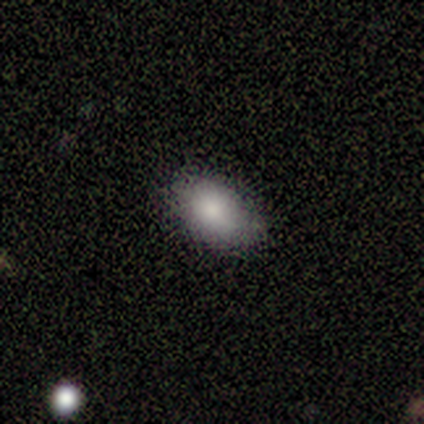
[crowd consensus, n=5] Smooth or featured: smooth — 100%
How rounded: in between — 80% (round — 20%)
Merging: none — 100%